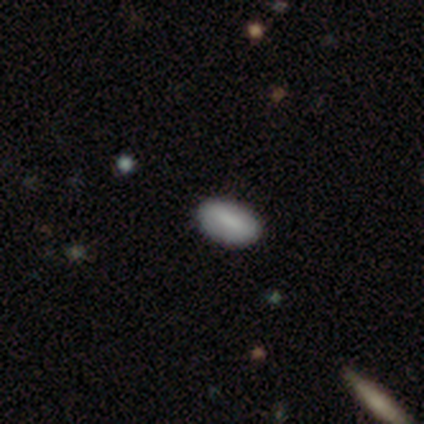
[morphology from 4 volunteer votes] Smooth or featured?
  - smooth: 75% *
  - featured or disk: 25%
  - star or artifact: 0%
How rounded?
  - in between: 100% *
  - round: 0%
  - cigar-shaped: 0%
Merging?
  - none: 75% *
  - minor disturbance: 25%
  - major disturbance: 0%
  - merger: 0%